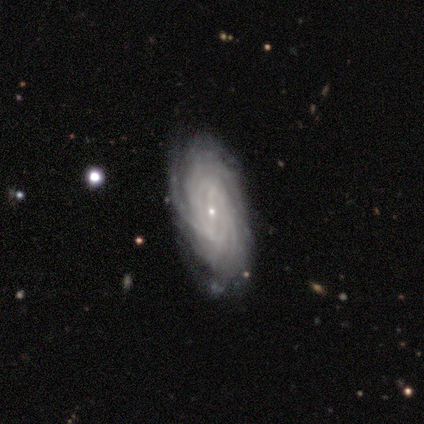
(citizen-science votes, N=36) Smooth or featured? featured or disk (97%)
Edge-on disk? no (91%)
Bar? weak (53%)
Spiral arms? yes (100%)
Spiral winding? tight (72%)
Spiral arm count? more than 4 (38%)
Bulge size? small (94%)
Merging? none (86%)